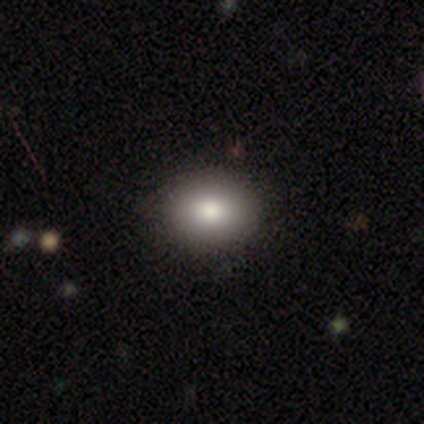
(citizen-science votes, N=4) This appears to be a smooth galaxy with no disk features (100%) that is round (75%). Merging: none (100%).